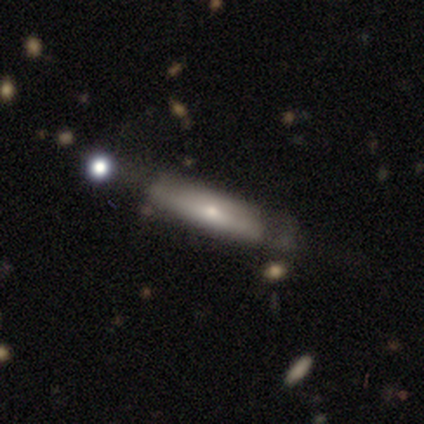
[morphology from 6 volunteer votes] smooth_or_featured: smooth (p=0.67) [alt: featured or disk p=0.33]
how_rounded: cigar-shaped (p=1.00)
merging: none (p=0.83) [alt: merger p=0.17]